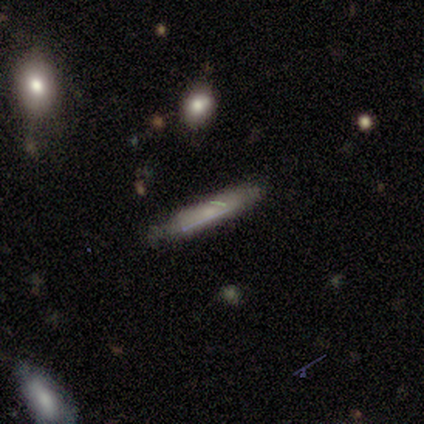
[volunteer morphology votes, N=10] smooth-or-featured: smooth: 50% | featured or disk: 40% | star or artifact: 10%
  how-rounded: cigar-shaped: 100% | round: 0% | in between: 0%
  merging: none: 56% | minor disturbance: 33% | major disturbance: 11% | merger: 0%